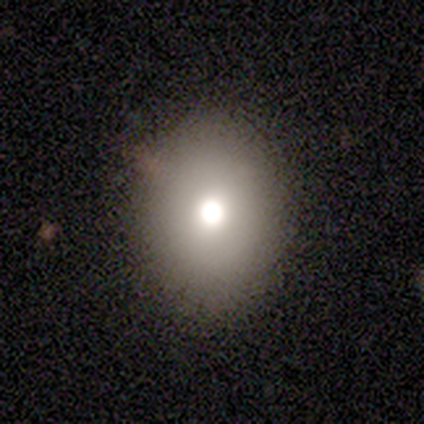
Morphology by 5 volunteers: Volunteers were most divided on "how rounded": in between: 75%, round: 25%, cigar-shaped: 0%. More confident: smooth or featured — smooth (80%); merging — none (80%).